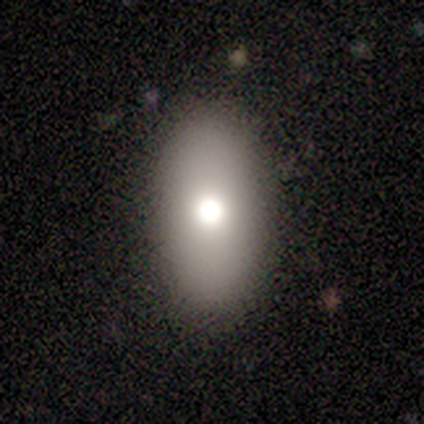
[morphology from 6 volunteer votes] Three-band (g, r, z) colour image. It shows a smooth galaxy with no disk features (50%, tied with featured or disk) that is in between round and cigar-shaped (100%). Merging: none (83%).